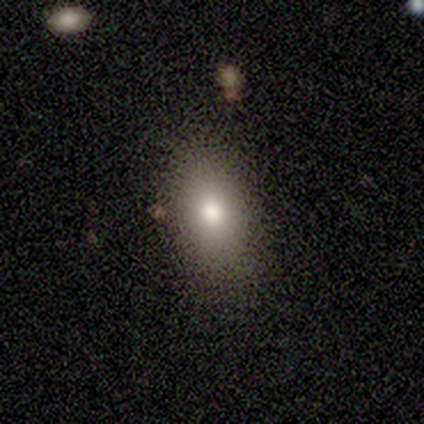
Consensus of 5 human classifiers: Smooth or featured? smooth (80%)
How rounded? in between (100%)
Merging? none (100%)